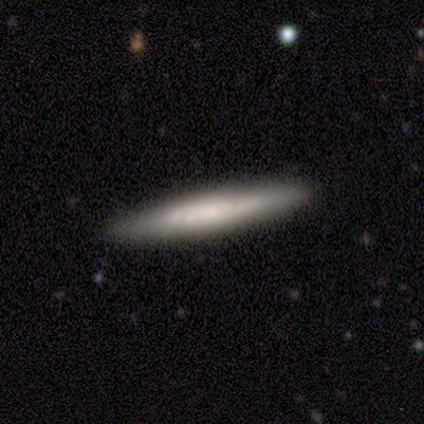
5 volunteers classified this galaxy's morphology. type=featured or disk (60%); edge-on=yes (67%); edge-on bulge=boxy (50%, tied with none); merging=none (60%).